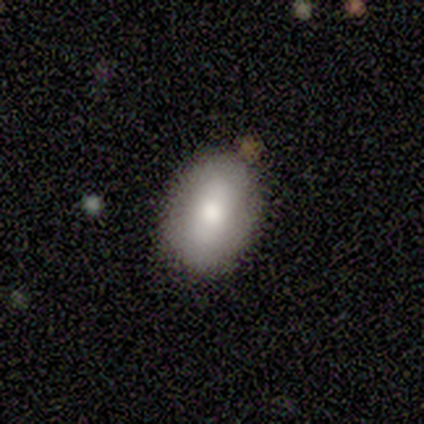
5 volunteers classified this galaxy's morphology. A smooth galaxy with no disk features (100%) that is in between round and cigar-shaped (100%). Merging: none (100%).